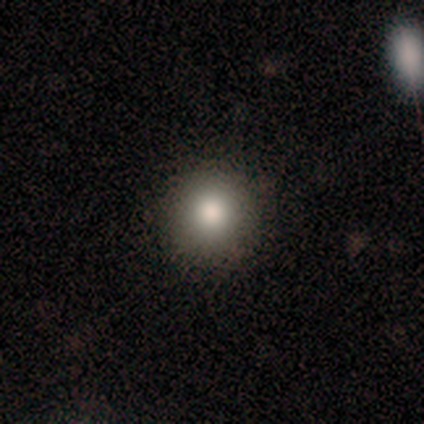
Smooth or featured? 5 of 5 (100%) said smooth. How rounded? 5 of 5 (100%) said round. Merging? 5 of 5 (100%) said none.